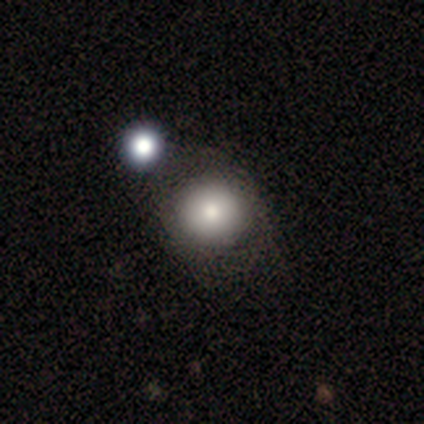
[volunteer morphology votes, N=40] Smooth or featured? smooth (80%)
How rounded? round (91%)
Merging? none (42%)